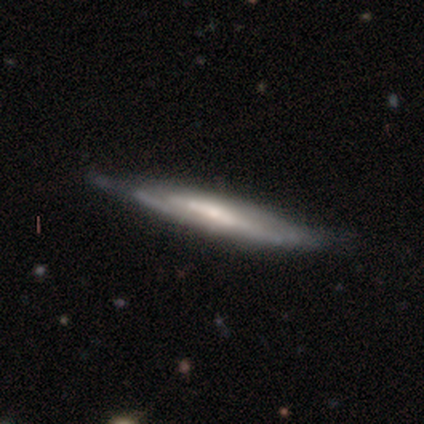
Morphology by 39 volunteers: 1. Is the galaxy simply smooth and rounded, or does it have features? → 77% featured or disk, 21% smooth, 3% star or artifact.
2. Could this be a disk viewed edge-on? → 87% yes, 13% no.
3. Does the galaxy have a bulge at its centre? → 65% none, 23% rounded, 12% boxy.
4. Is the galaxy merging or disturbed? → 74% none, 24% minor disturbance, 3% major disturbance, 0% merger.